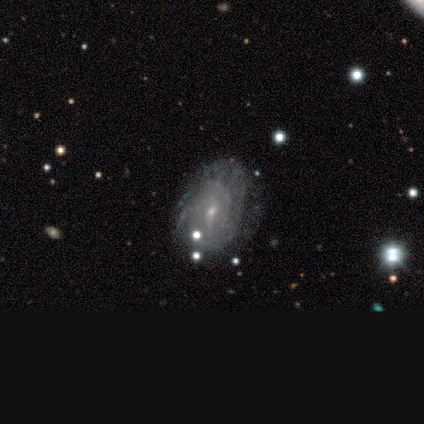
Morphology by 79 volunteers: Q: Smooth or featured?
A: featured or disk (81%); runner-up: smooth (14%)
Q: Edge-on disk?
A: no (97%); runner-up: yes (3%)
Q: Bar?
A: weak (48%); runner-up: no (45%)
Q: Spiral arms?
A: yes (79%); runner-up: no (21%)
Q: Spiral winding?
A: tight (41%); tied with: medium (41%)
Q: Spiral arm count?
A: can't tell (55%); runner-up: 2 (16%)
Q: Bulge size?
A: small (81%); runner-up: moderate (18%)
Q: Merging?
A: none (60%); runner-up: minor disturbance (21%)